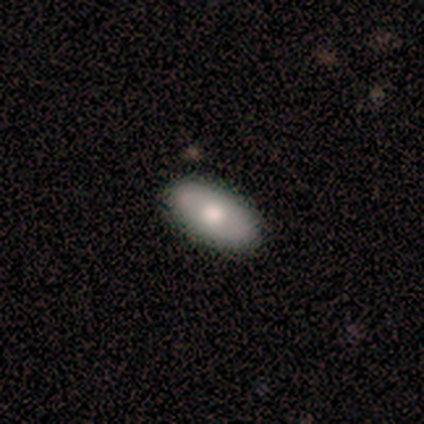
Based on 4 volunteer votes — Overall: smooth (50%, tied with featured or disk). How rounded: in between (100%). Merging: none (100%).